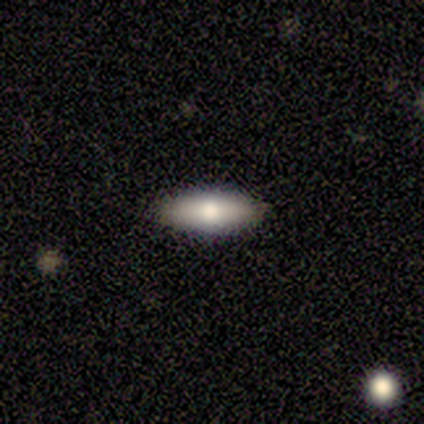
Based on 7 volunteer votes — This is clearly a smooth galaxy (100%). How rounded: possibly cigar-shaped (57%). Merging: clearly none (100%).